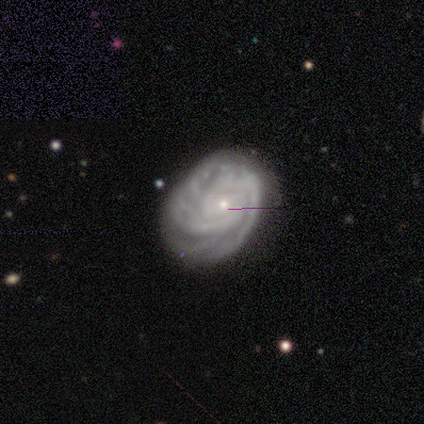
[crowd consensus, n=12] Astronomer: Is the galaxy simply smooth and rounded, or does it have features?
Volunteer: featured or disk — 100%.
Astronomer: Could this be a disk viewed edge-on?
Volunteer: no — 92%.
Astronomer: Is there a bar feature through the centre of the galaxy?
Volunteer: no — 82%.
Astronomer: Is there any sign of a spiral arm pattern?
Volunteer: yes — 100%.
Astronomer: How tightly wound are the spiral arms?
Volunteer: tight — 100%.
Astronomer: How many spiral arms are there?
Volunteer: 3 — 27%, tied with 4 at 27%.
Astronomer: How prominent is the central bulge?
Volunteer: small — 82%.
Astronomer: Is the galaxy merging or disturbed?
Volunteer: none — 67%.